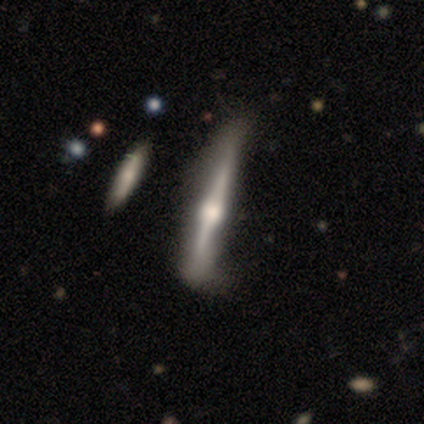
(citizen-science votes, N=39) This is clearly a featured or disk galaxy (85%). It is clearly viewed edge-on (97%). Edge-on bulge: clearly rounded (94%). Merging: marginally minor disturbance (27%).